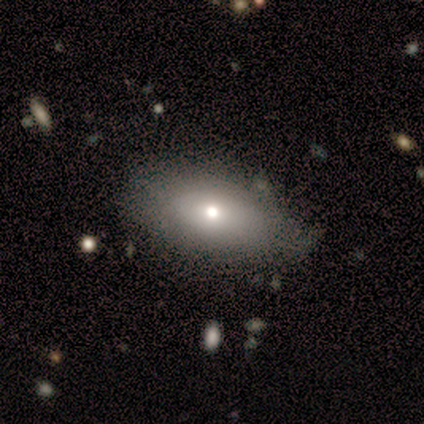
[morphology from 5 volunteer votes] smooth_or_featured: smooth (p=0.80) [alt: featured or disk p=0.20]
how_rounded: in between (p=1.00)
merging: none (p=1.00)